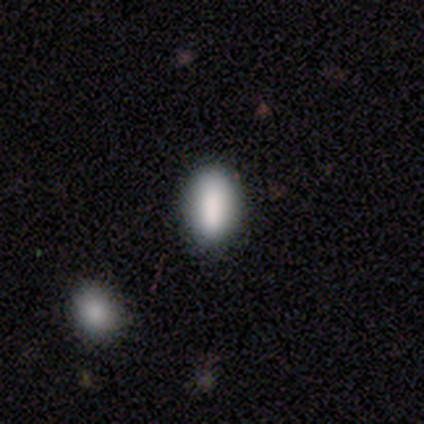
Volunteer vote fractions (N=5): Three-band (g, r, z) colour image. It shows a smooth galaxy with no disk features (100%) that is in between round and cigar-shaped (80%). Merging: none (80%).